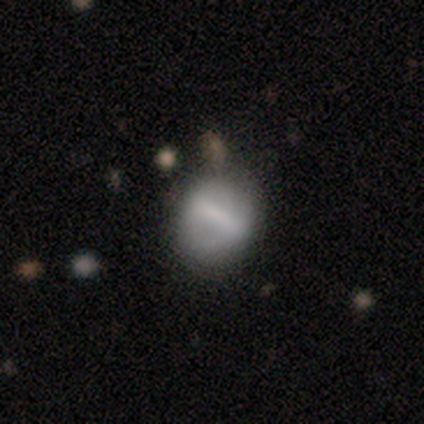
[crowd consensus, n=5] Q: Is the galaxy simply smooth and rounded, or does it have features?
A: featured or disk — 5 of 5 (100%).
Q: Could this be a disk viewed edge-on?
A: no — 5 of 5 (100%).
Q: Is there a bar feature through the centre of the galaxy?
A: strong — 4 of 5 (80%).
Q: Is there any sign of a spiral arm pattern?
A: no — 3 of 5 (60%).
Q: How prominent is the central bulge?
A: none — 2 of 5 (40%).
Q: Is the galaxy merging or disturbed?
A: none — 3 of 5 (60%).